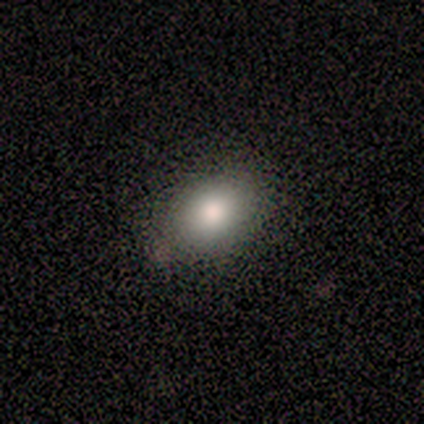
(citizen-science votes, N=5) smooth 100%, featured or disk 0%, star or artifact 0%. Down the decision tree: how rounded — round (60%); merging — none (100%).